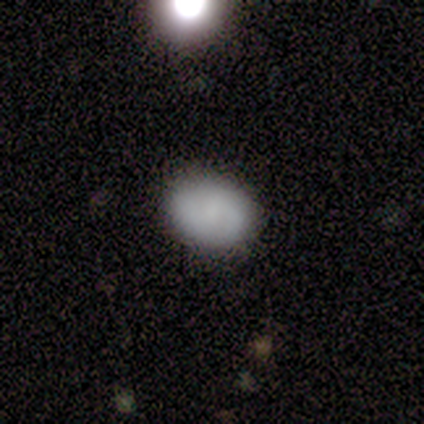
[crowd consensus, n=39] Smooth or featured: smooth — 72% (featured or disk — 23%)
How rounded: in between — 86% (round — 14%)
Merging: none — 78% (minor disturbance — 22%)